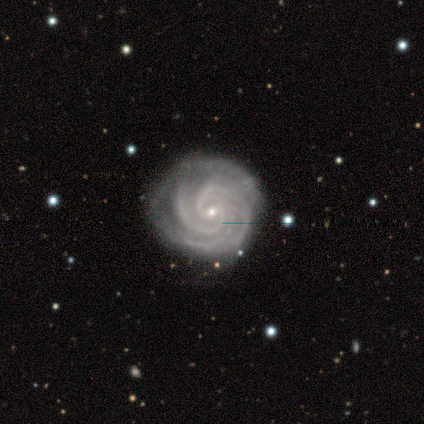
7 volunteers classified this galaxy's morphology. Overall: featured or disk (100%). Edge-on disk: no (100%). Bar: no (100%). Spiral arms: yes (100%). Spiral arm count: 3 (43%; 2 29%). Spiral winding: tight (86%). Bulge size: small (100%). Merging: none (86%).